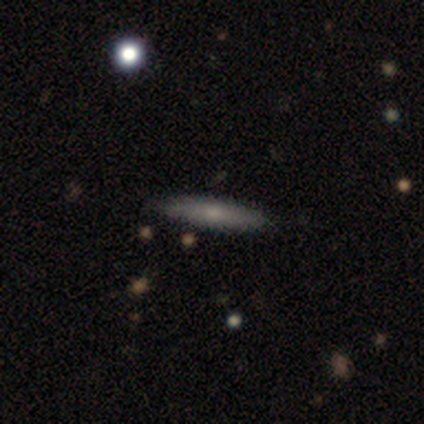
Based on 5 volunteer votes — Overall: smooth (100%). How rounded: cigar-shaped (100%). Merging: none (100%).